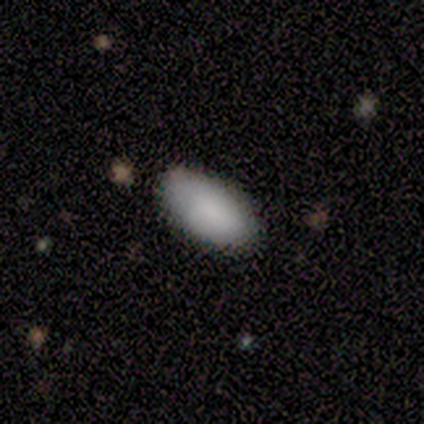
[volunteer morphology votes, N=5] Smooth or featured?
  - smooth: 100% *
  - featured or disk: 0%
  - star or artifact: 0%
How rounded?
  - in between: 100% *
  - round: 0%
  - cigar-shaped: 0%
Merging?
  - none: 80% *
  - merger: 20%
  - minor disturbance: 0%
  - major disturbance: 0%